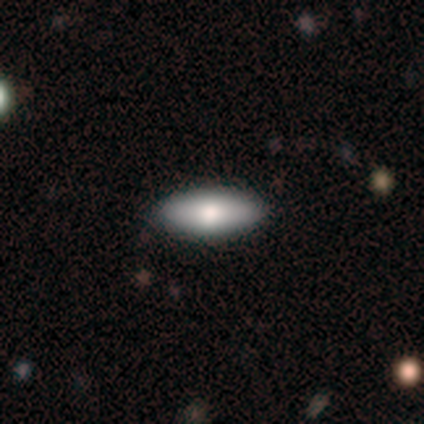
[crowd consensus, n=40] Smooth or featured: smooth — 82% (featured or disk — 15%)
How rounded: in between — 82% (cigar-shaped — 18%)
Merging: none — 56% (minor disturbance — 3%)